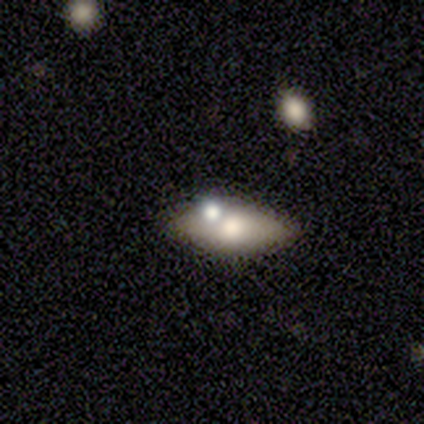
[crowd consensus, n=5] Smooth or featured? smooth (80%)
How rounded? in between (75%)
Merging? none (100%)